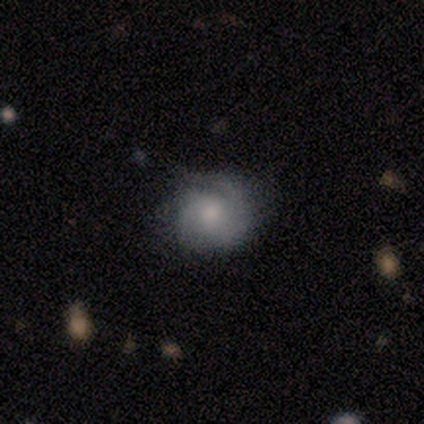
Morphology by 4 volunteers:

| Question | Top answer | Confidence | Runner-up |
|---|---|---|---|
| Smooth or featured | featured or disk | 75% | smooth (25%) |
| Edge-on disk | no | 100% | — |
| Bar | no | 100% | — |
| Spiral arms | yes | 100% | — |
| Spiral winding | tight | 33% | tied: medium (33%), loose (33%) |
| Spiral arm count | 2 | 67% | 3 (33%) |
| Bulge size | moderate | 67% | small (33%) |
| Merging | none | 100% | — |